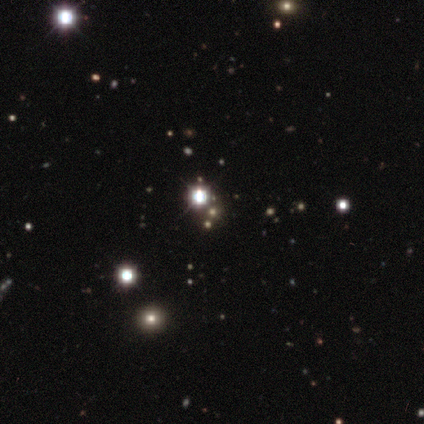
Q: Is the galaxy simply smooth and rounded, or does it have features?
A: star or artifact — 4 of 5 (80%).